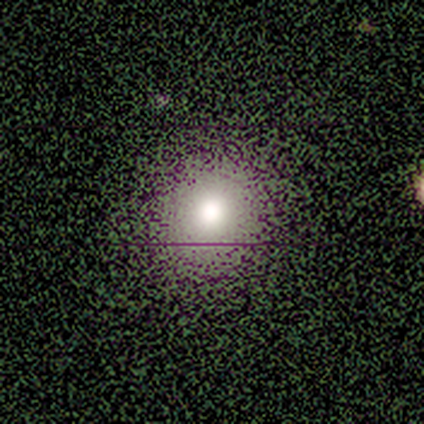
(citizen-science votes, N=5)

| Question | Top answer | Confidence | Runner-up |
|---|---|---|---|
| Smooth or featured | smooth | 80% | star or artifact (20%) |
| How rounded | round | 100% | — |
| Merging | none | 100% | — |